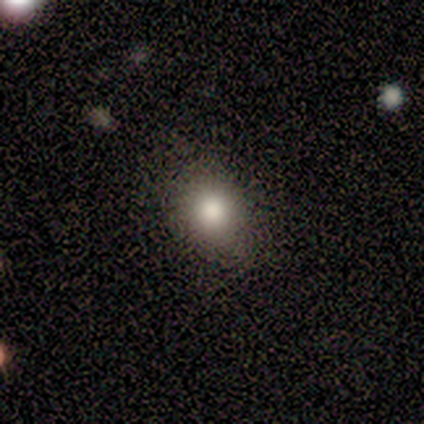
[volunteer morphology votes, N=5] smooth-or-featured: smooth: 100% | featured or disk: 0% | star or artifact: 0%
  how-rounded: round: 80% | in between: 20% | cigar-shaped: 0%
  merging: none: 100% | minor disturbance: 0% | major disturbance: 0% | merger: 0%